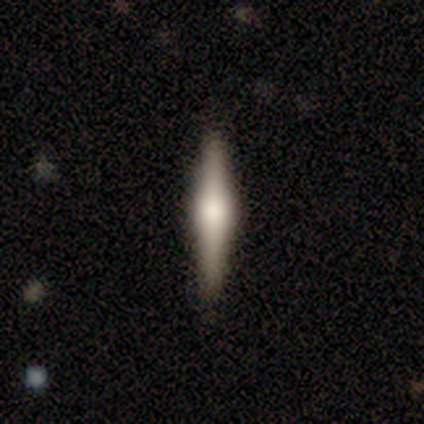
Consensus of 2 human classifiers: This appears to be a smooth galaxy with no disk features (50%, tied with featured or disk) that is cigar-shaped (100%). Merging: none (100%).